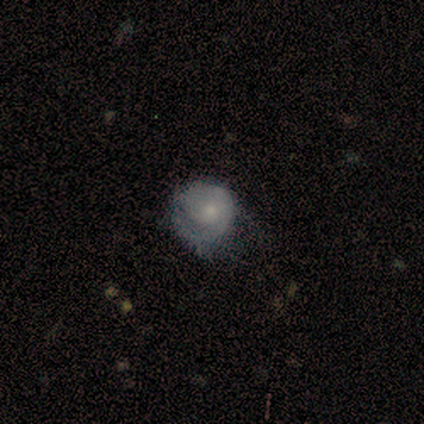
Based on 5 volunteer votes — Morphology: type=smooth (40%, tied with star or artifact); roundness=round (100%); merging=none (100%).